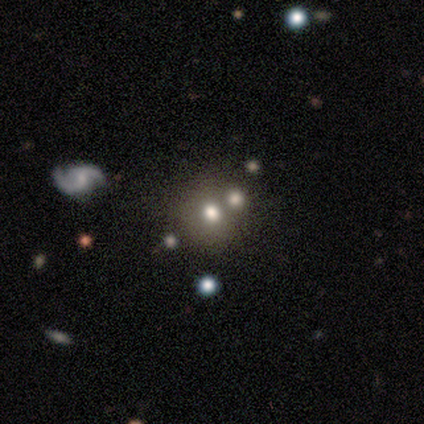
This appears to be a smooth galaxy with no disk features (50%, tied with star or artifact) that is round (100%). Merging: none (50%, tied with merger).